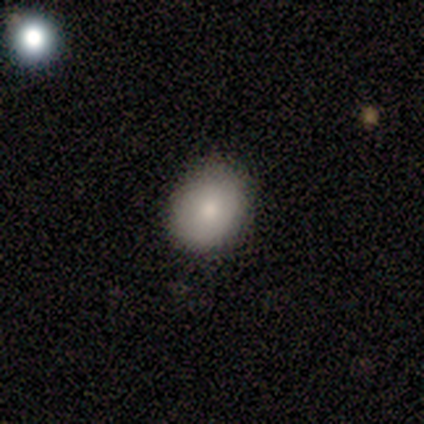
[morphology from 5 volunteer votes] Q: Smooth or featured?
A: smooth (80%); runner-up: featured or disk (20%)
Q: How rounded?
A: round (50%); tied with: in between (50%)
Q: Merging?
A: none (80%); runner-up: minor disturbance (20%)